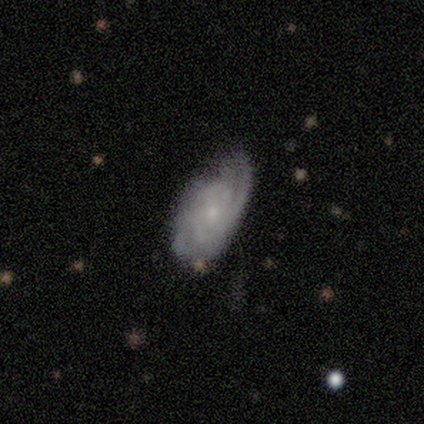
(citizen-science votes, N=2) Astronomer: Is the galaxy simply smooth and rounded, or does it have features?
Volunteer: featured or disk — 100%.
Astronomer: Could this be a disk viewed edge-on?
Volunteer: no — 100%.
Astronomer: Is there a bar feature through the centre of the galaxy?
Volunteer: no — 100%.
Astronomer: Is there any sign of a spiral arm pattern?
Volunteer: yes — 100%.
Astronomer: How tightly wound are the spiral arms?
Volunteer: medium — 100%.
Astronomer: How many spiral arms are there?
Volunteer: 2 — 50%, tied with 4 at 50%.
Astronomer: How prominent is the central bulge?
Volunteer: small — 100%.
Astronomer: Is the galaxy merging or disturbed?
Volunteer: none — 100%.